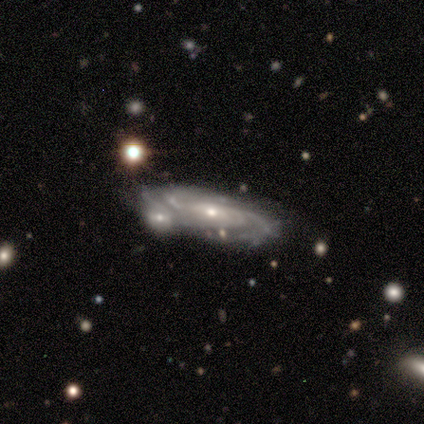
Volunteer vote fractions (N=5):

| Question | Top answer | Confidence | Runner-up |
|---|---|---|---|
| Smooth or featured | featured or disk | 100% | — |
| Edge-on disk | no | 100% | — |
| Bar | no | 80% | weak (20%) |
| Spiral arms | yes | 100% | — |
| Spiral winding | tight | 80% | medium (20%) |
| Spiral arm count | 4 | 40% | tied: can't tell (40%) |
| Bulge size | small | 80% | moderate (20%) |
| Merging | none | 40% | tied: merger (40%) |